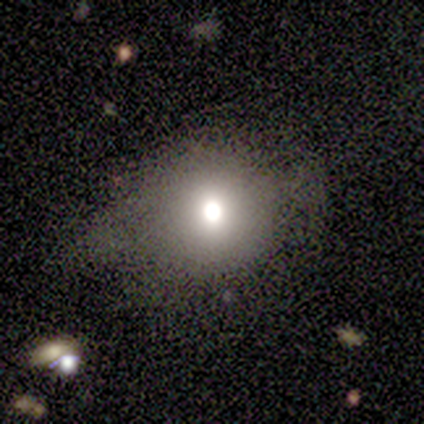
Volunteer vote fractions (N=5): Smooth or featured? smooth (80%)
How rounded? round (100%)
Merging? none (100%)